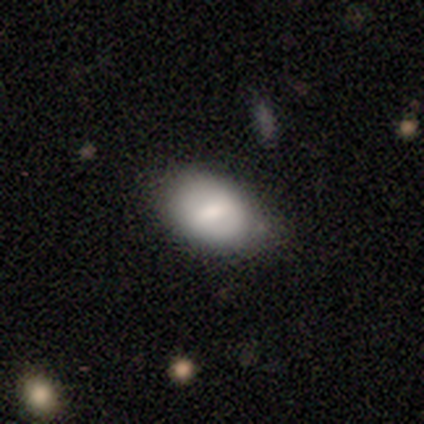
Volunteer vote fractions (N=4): This appears to be a smooth galaxy with no disk features (75%) that is round (33%, tied with in between and cigar-shaped). Merging: none (100%).